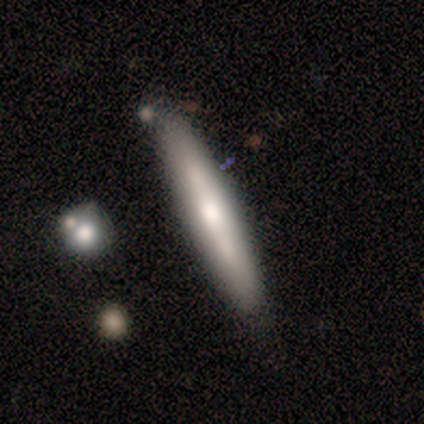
Volunteers were most divided on "smooth or featured": featured or disk: 60%, smooth: 40%, star or artifact: 0%. More confident: edge-on disk — yes (100%); merging — none (80%); edge-on bulge — none (67%).